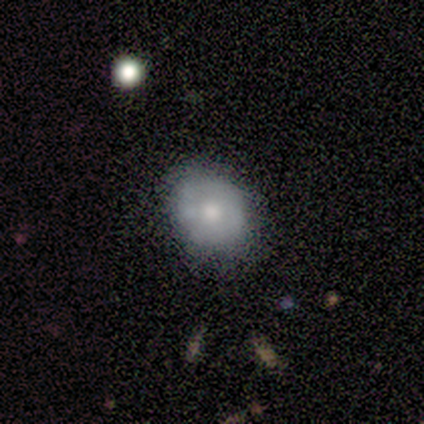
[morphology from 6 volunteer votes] A smooth galaxy with no disk features (67%) that is in between round and cigar-shaped (100%).

Vote fractions:
- Smooth or featured? smooth: 67% / featured or disk: 33% / star or artifact: 0%
- How rounded? in between: 100% / round: 0% / cigar-shaped: 0%
- Merging? none: 67% / minor disturbance: 33% / major disturbance: 0% / merger: 0%